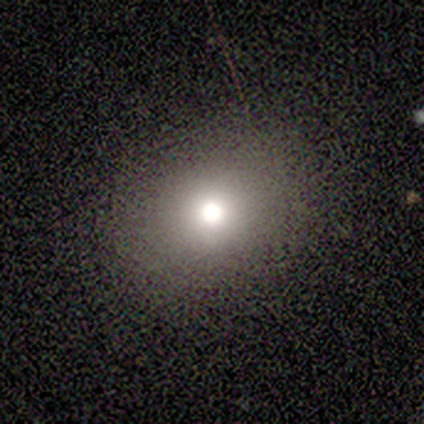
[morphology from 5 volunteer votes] Smooth or featured?
  - star or artifact: 60% *
  - smooth: 40%
  - featured or disk: 0%